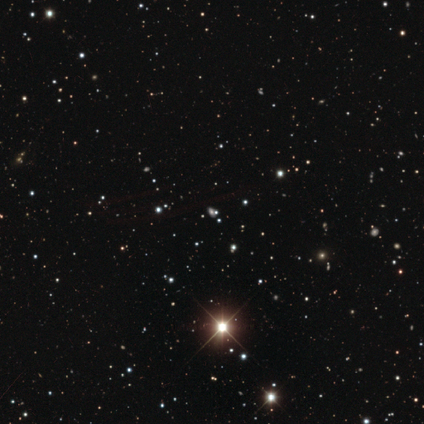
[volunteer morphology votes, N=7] A star or artifact, not a galaxy (86%).

Vote fractions:
- Smooth or featured? star or artifact: 86% / smooth: 14% / featured or disk: 0%